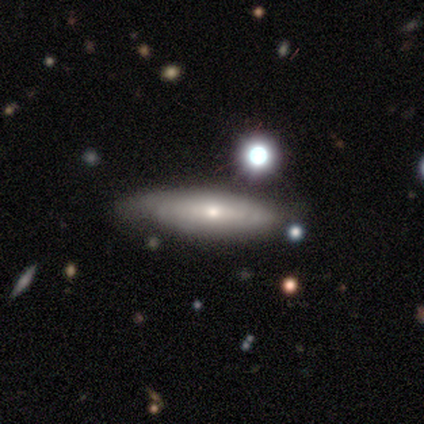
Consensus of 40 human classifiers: A featured or disk galaxy (50%) viewed edge-on (70%) with a rounded central bulge (64%).

Vote fractions:
- Smooth or featured? featured or disk: 50% / smooth: 35% / star or artifact: 15%
- Edge-on disk? yes: 70% / no: 30%
- Edge-on bulge? rounded: 64% / none: 36% / boxy: 0%
- Merging? none: 88% / minor disturbance: 6% / merger: 6% / major disturbance: 0%